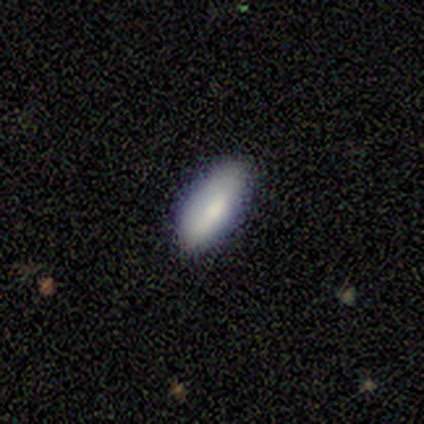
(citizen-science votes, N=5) This is clearly a smooth galaxy (80%). How rounded: clearly in between (100%). Merging: clearly none (80%).